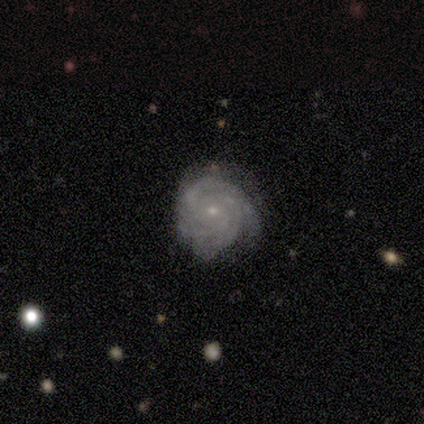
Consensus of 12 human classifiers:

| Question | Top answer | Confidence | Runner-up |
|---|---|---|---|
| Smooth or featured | featured or disk | 100% | — |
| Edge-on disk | no | 100% | — |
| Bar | no | 83% | strong (8%) |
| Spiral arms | yes | 92% | no (8%) |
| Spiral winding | tight | 100% | — |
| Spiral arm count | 3 | 55% | can't tell (27%) |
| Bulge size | small | 100% | — |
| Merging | none | 100% | — |